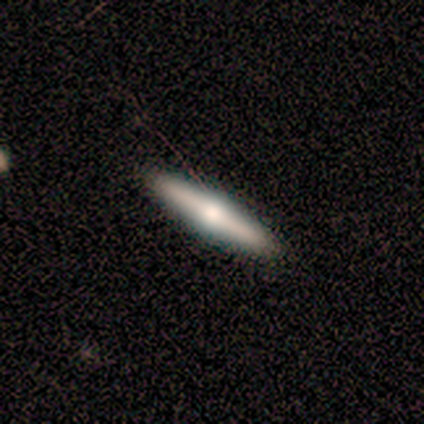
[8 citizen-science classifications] This appears to be a featured or disk galaxy (75%) viewed edge-on (100%) with a rounded central bulge (100%). Merging: none (100%).